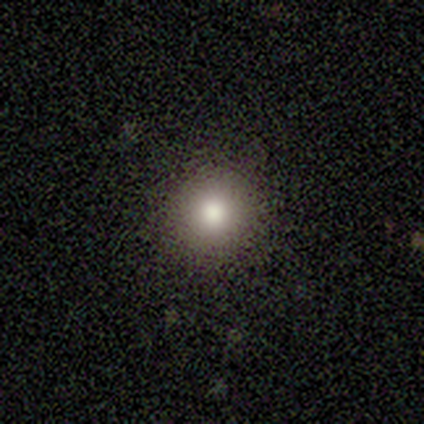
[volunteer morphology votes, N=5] smooth-or-featured: smooth: 60% | featured or disk: 40% | star or artifact: 0%
  how-rounded: round: 100% | in between: 0% | cigar-shaped: 0%
  merging: none: 100% | minor disturbance: 0% | major disturbance: 0% | merger: 0%